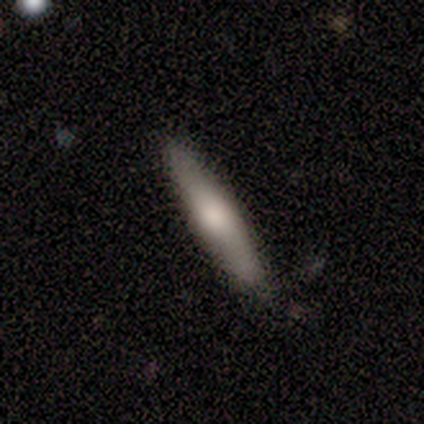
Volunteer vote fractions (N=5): Volunteers were most divided on "smooth or featured": featured or disk: 60%, smooth: 40%, star or artifact: 0%. More confident: edge-on disk — yes (100%); edge-on bulge — rounded (100%); merging — none (100%).